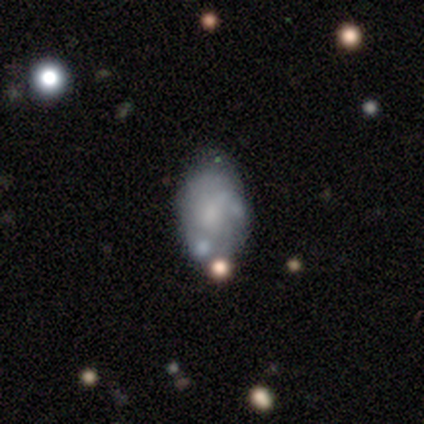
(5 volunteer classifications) Smooth or featured? 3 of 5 (60%) said smooth. How rounded? 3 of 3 (100%) said in between. Merging? 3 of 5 (60%) said none.